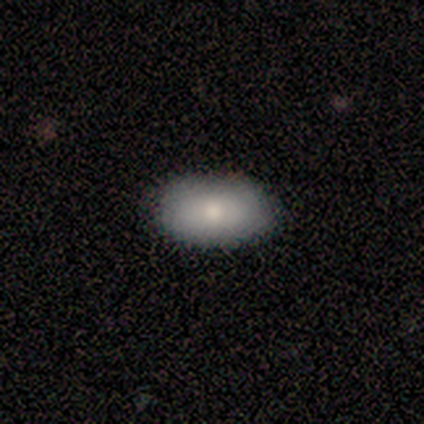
Smooth or featured?
  - smooth: 80% *
  - featured or disk: 20%
  - star or artifact: 0%
How rounded?
  - in between: 100% *
  - round: 0%
  - cigar-shaped: 0%
Merging?
  - none: 100% *
  - minor disturbance: 0%
  - major disturbance: 0%
  - merger: 0%